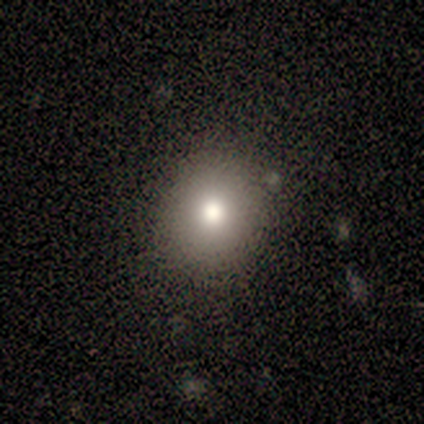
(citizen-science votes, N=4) Smooth or featured: smooth — 100%
How rounded: round — 75% (in between — 25%)
Merging: none — 100%